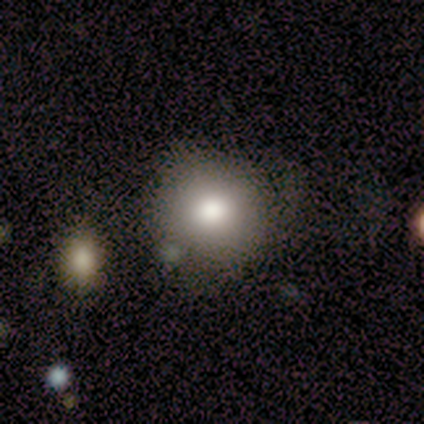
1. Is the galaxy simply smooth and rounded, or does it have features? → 75% smooth, 17% featured or disk, 8% star or artifact.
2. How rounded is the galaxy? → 89% round, 11% in between, 0% cigar-shaped.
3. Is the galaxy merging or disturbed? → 82% none, 9% major disturbance, 9% merger, 0% minor disturbance.